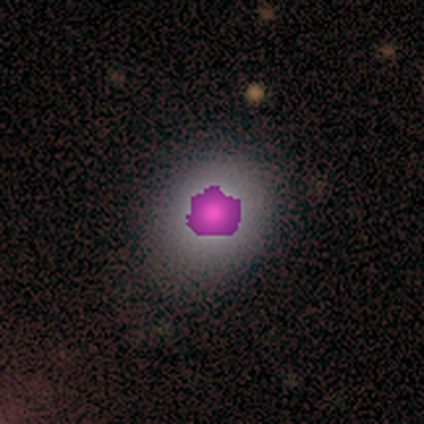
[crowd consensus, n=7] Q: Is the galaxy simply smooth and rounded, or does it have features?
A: smooth — 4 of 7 (57%).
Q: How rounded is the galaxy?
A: round — 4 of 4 (100%).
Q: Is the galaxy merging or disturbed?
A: none — 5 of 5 (100%).